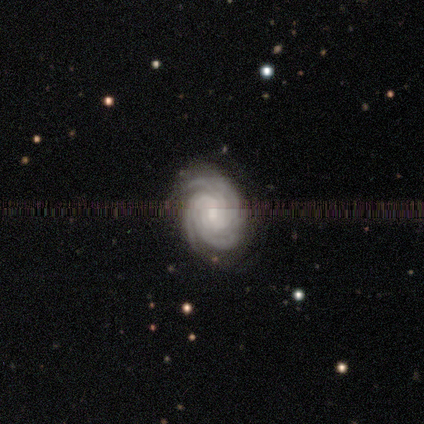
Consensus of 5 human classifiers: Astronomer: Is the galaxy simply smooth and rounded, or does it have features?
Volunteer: featured or disk — 100%.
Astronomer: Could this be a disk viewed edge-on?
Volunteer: no — 100%.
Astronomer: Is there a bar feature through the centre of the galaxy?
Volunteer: no — 80%.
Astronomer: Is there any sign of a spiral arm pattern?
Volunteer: yes — 100%.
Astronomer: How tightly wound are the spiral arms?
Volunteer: tight — 100%.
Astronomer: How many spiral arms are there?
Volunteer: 3 — 60% (runner-up: 4, 40%).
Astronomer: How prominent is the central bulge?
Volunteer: small — 60% (runner-up: moderate, 40%).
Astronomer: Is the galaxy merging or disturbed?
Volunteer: none — 80%.